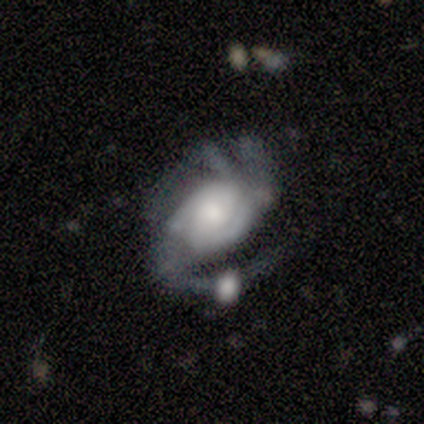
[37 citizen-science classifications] featured or disk 86%, smooth 8%, star or artifact 5%. Down the decision tree: edge-on disk — no (100%); bar — no (69%); spiral arms — yes (97%); spiral arm count — 2 (39%); spiral winding — medium (58%); bulge size — moderate (41%); merging — none (31%, tied with major disturbance).